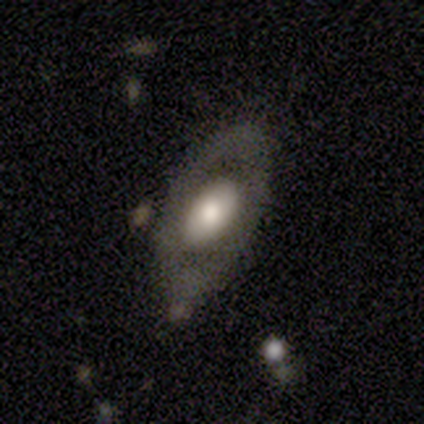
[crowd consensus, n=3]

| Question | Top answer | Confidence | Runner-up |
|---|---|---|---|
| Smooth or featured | featured or disk | 67% | smooth (33%) |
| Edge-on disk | yes | 50% | tied: no (50%) |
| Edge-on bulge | rounded | 100% | — |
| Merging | minor disturbance | 67% | none (33%) |